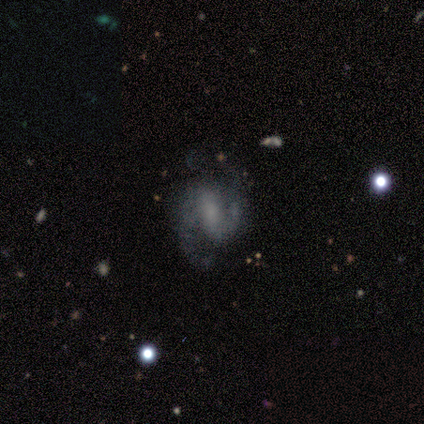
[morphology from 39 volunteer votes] This is clearly a featured or disk galaxy (90%). It is clearly not viewed edge-on (100%). Bar: possibly no (49%). Spiral arm pattern: clearly yes (94%). Spiral arm count: clearly 2 (91%). Spiral winding: likely medium (67%). Central bulge: marginally none (43%). Merging: possibly none (49%).